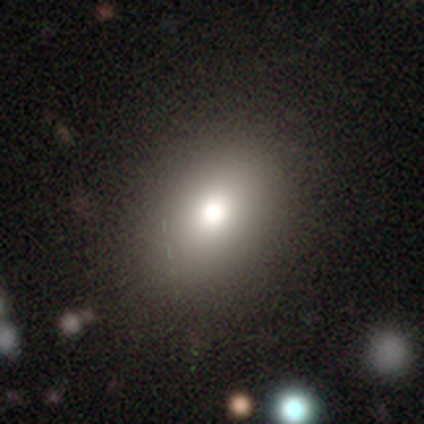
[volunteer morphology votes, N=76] Q: Smooth or featured?
A: smooth (76%); runner-up: star or artifact (17%)
Q: How rounded?
A: in between (66%); runner-up: round (33%)
Q: Merging?
A: none (38%); runner-up: merger (8%)